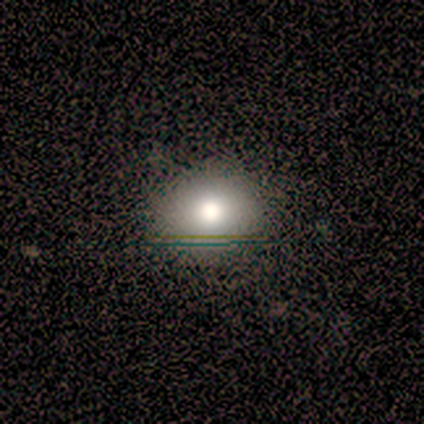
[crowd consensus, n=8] smooth 62%, featured or disk 38%, star or artifact 0%. Down the decision tree: how rounded — round (100%); merging — none (75%).